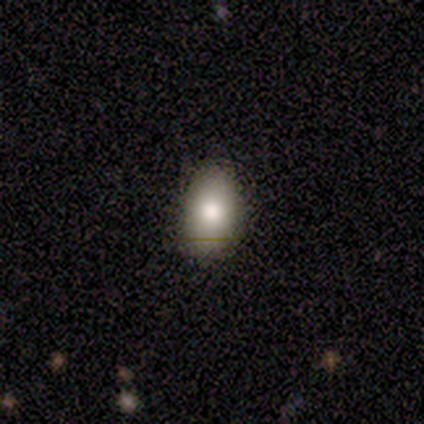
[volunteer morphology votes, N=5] smooth 80%, featured or disk 20%, star or artifact 0%. Down the decision tree: how rounded — in between (100%); merging — none (100%).